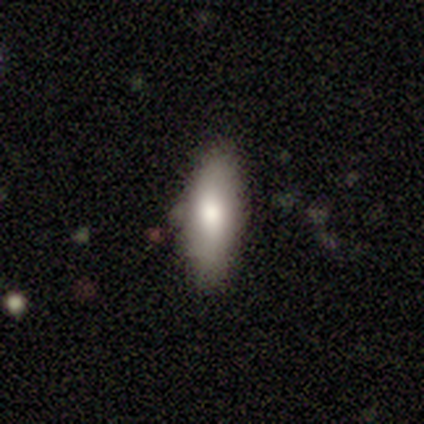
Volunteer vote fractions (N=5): Smooth or featured? smooth (60%)
How rounded? in between (67%)
Merging? none (80%)